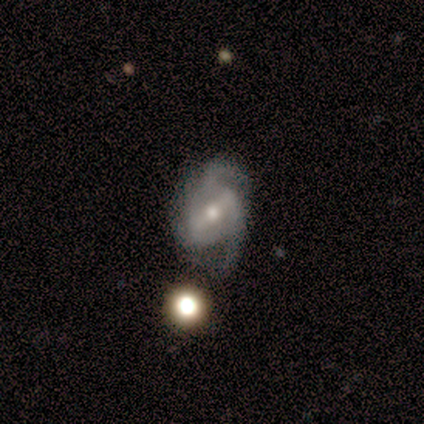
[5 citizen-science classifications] featured or disk 100%, smooth 0%, star or artifact 0%. Down the decision tree: edge-on disk — no (100%); bar — weak (80%); spiral arms — yes (100%); spiral arm count — 2 (80%); spiral winding — loose (60%); bulge size — moderate (80%); merging — minor disturbance (80%).